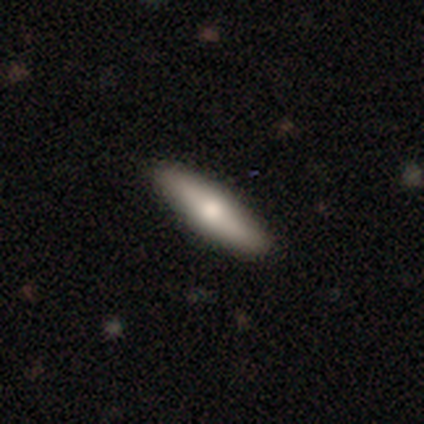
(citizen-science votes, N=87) smooth_or_featured: smooth (p=0.62) [alt: featured or disk p=0.33]
how_rounded: cigar-shaped (p=0.67) [alt: in between p=0.33]
merging: none (p=0.92) [alt: minor disturbance p=0.06]